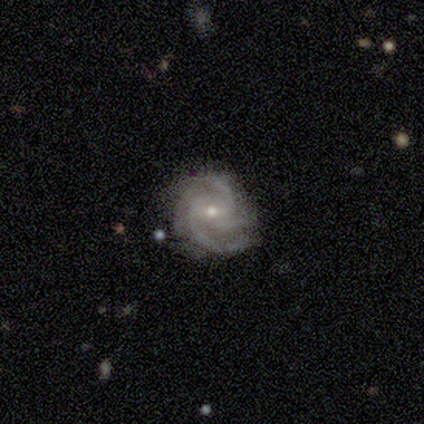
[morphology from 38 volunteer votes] smooth-or-featured: featured or disk: 89% | smooth: 5% | star or artifact: 5%
  disk-edge-on: no: 100% | yes: 0%
    bar: weak: 53% | no: 41% | strong: 6%
    has-spiral-arms: yes: 100% | no: 0%
      spiral-winding: tight: 65% | medium: 32% | loose: 3%
      spiral-arm-count: 3: 62% | 4: 24% | 2: 9% | more than 4: 3% | can't tell: 3% | 1: 0%
    bulge-size: small: 62% | moderate: 38% | dominant: 0% | large: 0% | none: 0%
  merging: none: 72% | minor disturbance: 28% | major disturbance: 0% | merger: 0%